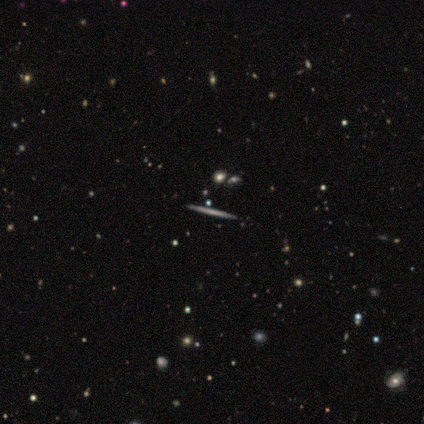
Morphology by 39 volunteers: A featured or disk galaxy (77%) viewed edge-on (97%) with no central bulge (93%).

Vote fractions:
- Smooth or featured? featured or disk: 77% / smooth: 21% / star or artifact: 3%
- Edge-on disk? yes: 97% / no: 3%
- Edge-on bulge? none: 93% / boxy: 3% / rounded: 3%
- Merging? none: 89% / minor disturbance: 5% / merger: 5% / major disturbance: 0%